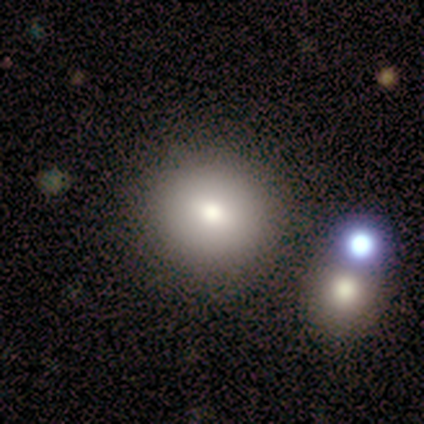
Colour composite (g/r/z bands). It shows a smooth galaxy with no disk features (50%, tied with featured or disk) that is round (100%). Merging: none (50%).